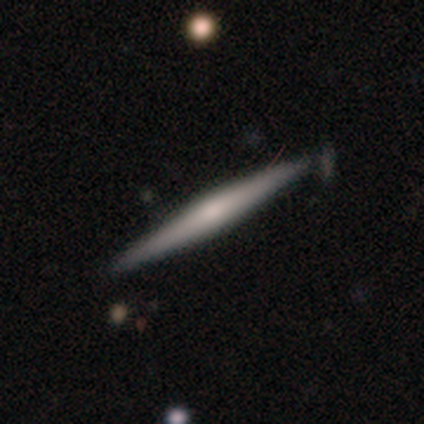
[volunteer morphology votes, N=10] Smooth or featured: featured or disk — 50% (smooth — 40%)
Edge-on disk: yes — 100%
Edge-on bulge: rounded — 100%
Merging: none — 89% (minor disturbance — 11%)